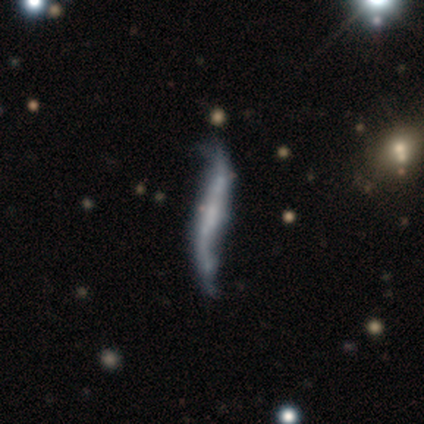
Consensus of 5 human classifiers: Smooth or featured? 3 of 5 (60%) said featured or disk. Edge-on disk? 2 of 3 (67%) said no. Bar? 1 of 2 (50%, tied with no) said strong. Spiral arms? 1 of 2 (50%, tied with no) said yes. Spiral winding? 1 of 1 (100%) said loose. Spiral arm count? 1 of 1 (100%) said 2. Bulge size? 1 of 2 (50%, tied with none) said small. Merging? 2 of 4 (50%) said minor disturbance.